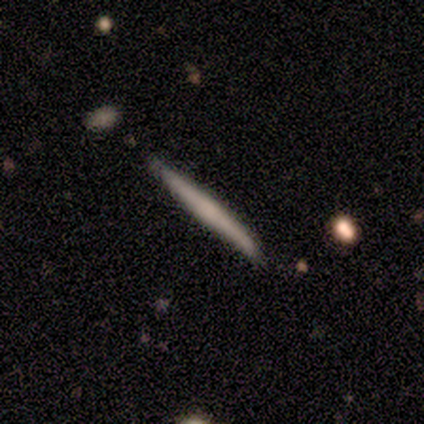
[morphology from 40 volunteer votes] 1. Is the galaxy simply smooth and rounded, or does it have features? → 55% smooth, 42% featured or disk, 2% star or artifact.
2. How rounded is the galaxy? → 95% cigar-shaped, 5% in between, 0% round.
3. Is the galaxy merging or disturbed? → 59% none, 21% minor disturbance, 0% major disturbance, 0% merger.